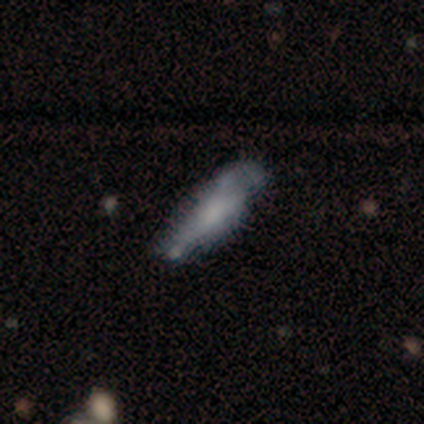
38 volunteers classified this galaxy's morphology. Overall: smooth (53%; featured or disk 29%). How rounded: cigar-shaped (70%; in between 30%). Merging: none (39%; minor disturbance 32%).